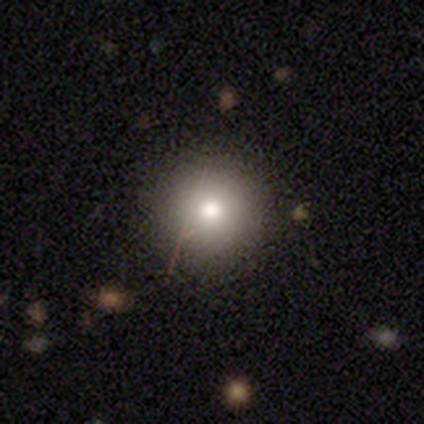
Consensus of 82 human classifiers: Q: Smooth or featured?
A: smooth (84%); runner-up: star or artifact (9%)
Q: How rounded?
A: round (94%); runner-up: in between (6%)
Q: Merging?
A: none (47%); runner-up: minor disturbance (3%)